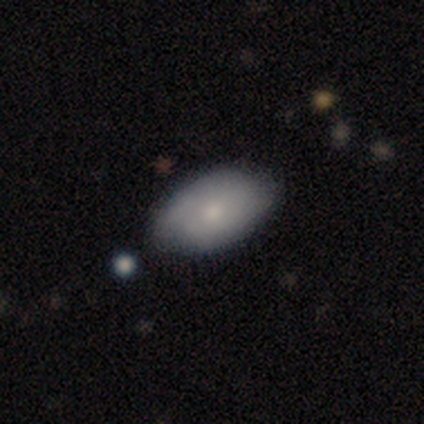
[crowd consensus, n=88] A smooth galaxy with no disk features (68%) that is in between round and cigar-shaped (88%). Merging: none (62%).